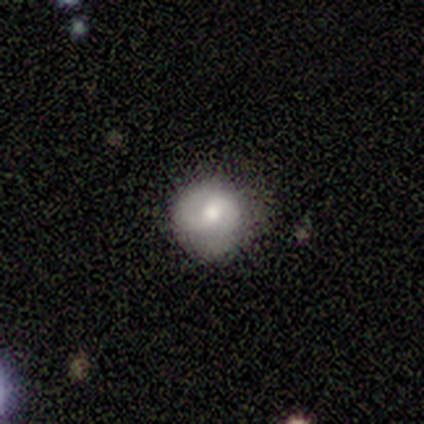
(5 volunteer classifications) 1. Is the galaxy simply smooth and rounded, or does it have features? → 60% smooth, 40% featured or disk, 0% star or artifact.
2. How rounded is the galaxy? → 67% round, 33% in between, 0% cigar-shaped.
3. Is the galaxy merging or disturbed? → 100% none, 0% minor disturbance, 0% major disturbance, 0% merger.